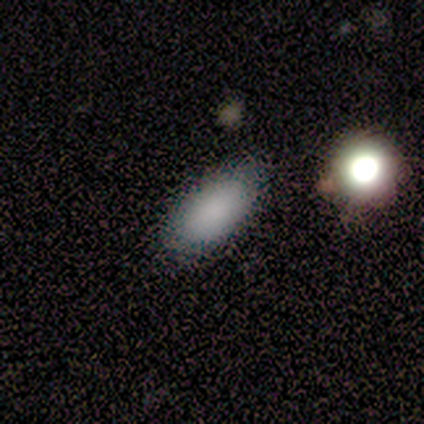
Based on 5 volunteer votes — Q: Smooth or featured?
A: smooth (100%)
Q: How rounded?
A: in between (100%)
Q: Merging?
A: none (100%)